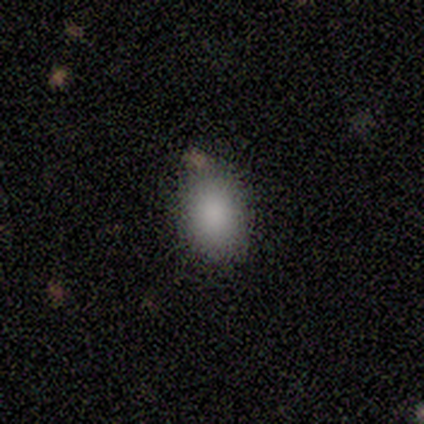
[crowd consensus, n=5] Smooth or featured: smooth — 80% (star or artifact — 20%)
How rounded: in between — 75% (round — 25%)
Merging: none — 75% (minor disturbance — 25%)